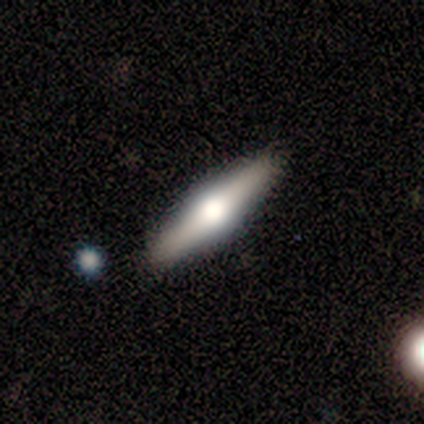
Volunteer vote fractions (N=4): Overall: smooth (50%, tied with featured or disk). How rounded: cigar-shaped (100%). Merging: none (100%).